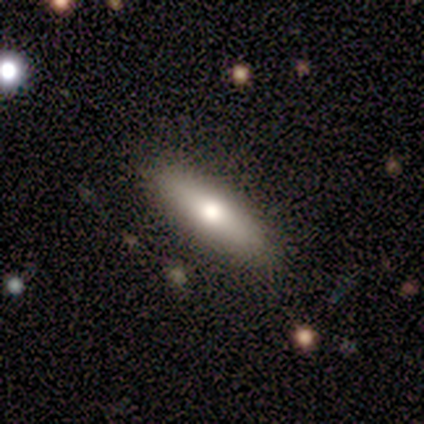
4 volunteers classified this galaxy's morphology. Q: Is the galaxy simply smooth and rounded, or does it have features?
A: smooth — 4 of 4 (100%).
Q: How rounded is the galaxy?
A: cigar-shaped — 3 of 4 (75%).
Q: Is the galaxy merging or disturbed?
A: none — 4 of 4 (100%).